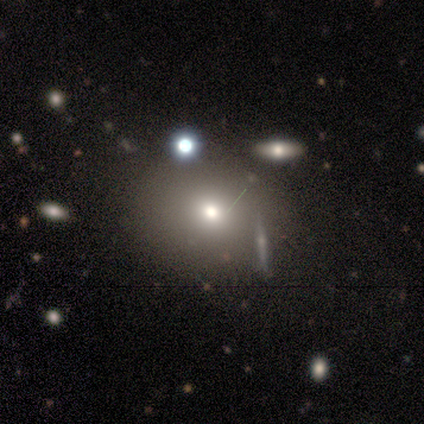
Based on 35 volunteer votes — Smooth or featured? smooth (69%)
How rounded? round (67%)
Merging? none (76%)